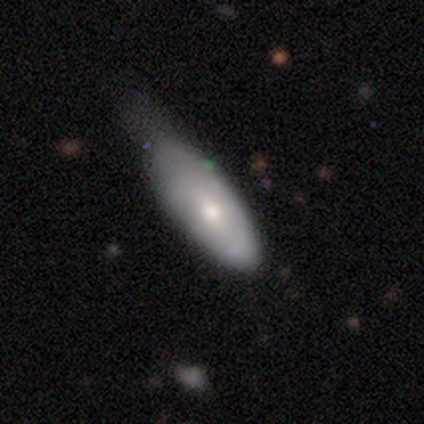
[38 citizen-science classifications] A smooth galaxy with no disk features (47%, tied with featured or disk) that is in between round and cigar-shaped (83%). Merging: minor disturbance (50%).